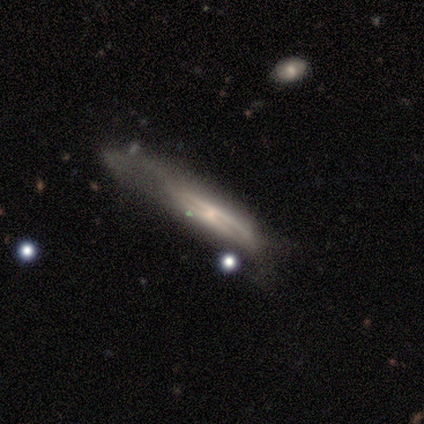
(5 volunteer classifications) smooth_or_featured: featured or disk (p=0.80) [alt: smooth p=0.20]
disk_edge_on: yes (p=0.50) [tied with: no p=0.50]
edge_on_bulge: boxy (p=0.50) [tied with: rounded p=0.50]
merging: major disturbance (p=1.00)